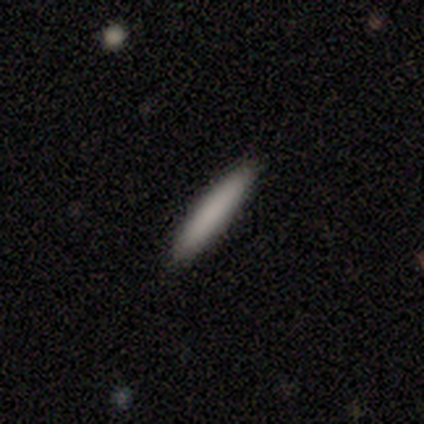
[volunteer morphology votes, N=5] smooth-or-featured: smooth: 80% | star or artifact: 20% | featured or disk: 0%
  how-rounded: cigar-shaped: 100% | round: 0% | in between: 0%
  merging: none: 75% | minor disturbance: 25% | major disturbance: 0% | merger: 0%